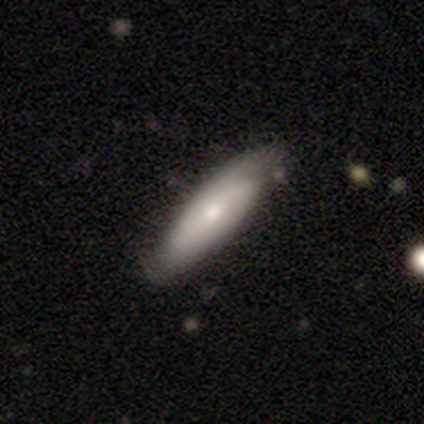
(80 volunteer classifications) smooth-or-featured: smooth: 55% | featured or disk: 42% | star or artifact: 2%
  how-rounded: in between: 55% | cigar-shaped: 43% | round: 2%
  merging: none: 53% | minor disturbance: 13% | major disturbance: 1% | merger: 0%